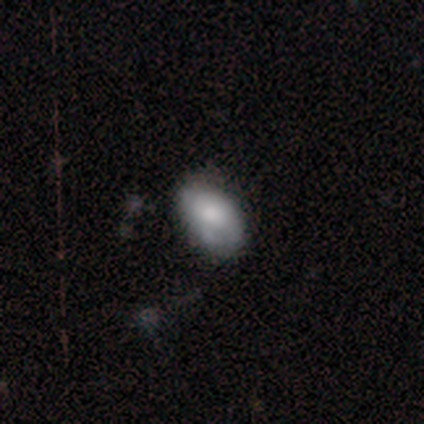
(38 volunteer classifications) This is likely a smooth galaxy (71%). How rounded: clearly in between (85%). Merging: marginally none (32%).